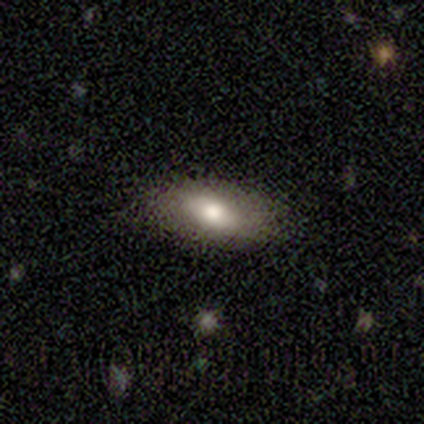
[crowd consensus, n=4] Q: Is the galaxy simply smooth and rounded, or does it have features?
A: smooth — 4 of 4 (100%).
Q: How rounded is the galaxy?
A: in between — 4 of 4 (100%).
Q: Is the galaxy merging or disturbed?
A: none — 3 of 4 (75%).